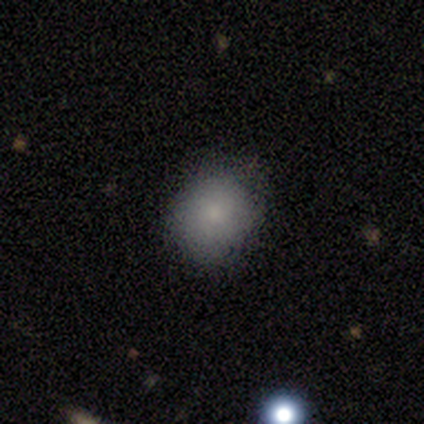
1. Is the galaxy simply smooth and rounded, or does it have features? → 100% smooth, 0% featured or disk, 0% star or artifact.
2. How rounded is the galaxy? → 75% round, 25% in between, 0% cigar-shaped.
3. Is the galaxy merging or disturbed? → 100% none, 0% minor disturbance, 0% major disturbance, 0% merger.